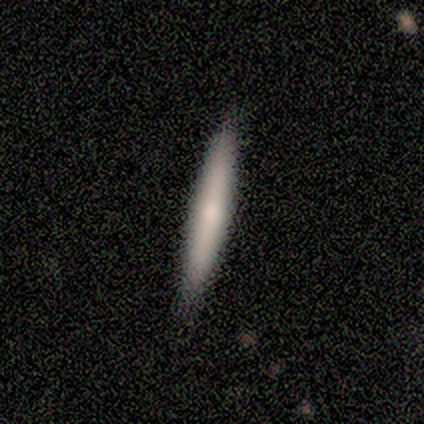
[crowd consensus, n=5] Q: Smooth or featured?
A: smooth (80%); runner-up: featured or disk (20%)
Q: How rounded?
A: cigar-shaped (100%)
Q: Merging?
A: none (100%)